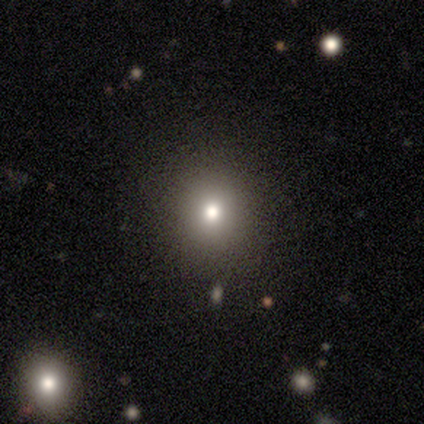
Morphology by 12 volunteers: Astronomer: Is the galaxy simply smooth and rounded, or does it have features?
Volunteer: smooth — 83%.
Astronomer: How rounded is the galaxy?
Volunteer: round — 100%.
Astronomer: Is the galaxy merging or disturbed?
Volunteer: none — 100%.